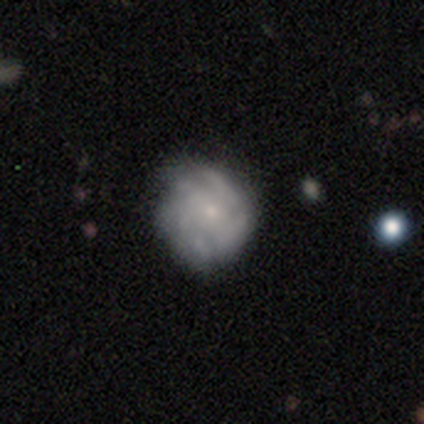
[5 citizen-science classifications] Volunteers were most divided on "spiral arm count" (3-way tie): 4: 33%, more than 4: 33%, can't tell: 33%, 1: 0%, 2: 0%, 3: 0%. More confident: edge-on disk — no (100%); bar — no (100%); spiral arms — yes (100%); bulge size — small (100%); spiral winding — loose (67%); smooth or featured — featured or disk (60%); merging — none (60%).